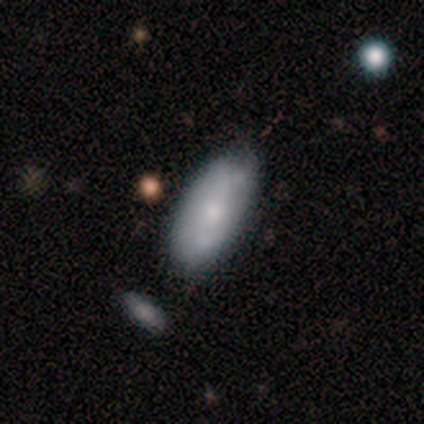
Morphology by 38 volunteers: Smooth or featured?
  - smooth: 55% *
  - featured or disk: 34%
  - star or artifact: 11%
How rounded?
  - in between: 90% *
  - cigar-shaped: 10%
  - round: 0%
Merging?
  - none: 47% *
  - minor disturbance: 38%
  - major disturbance: 12%
  - merger: 3%